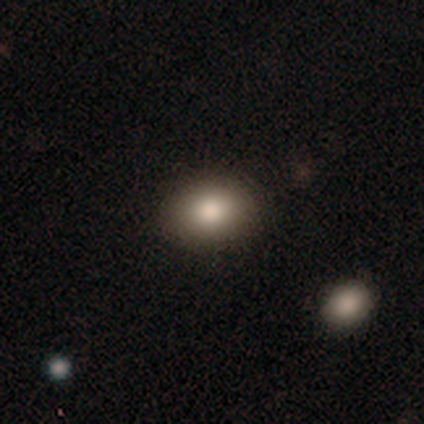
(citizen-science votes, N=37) Q: Smooth or featured?
A: smooth (84%); runner-up: featured or disk (8%)
Q: How rounded?
A: in between (68%); runner-up: round (29%)
Q: Merging?
A: none (85%); runner-up: minor disturbance (12%)